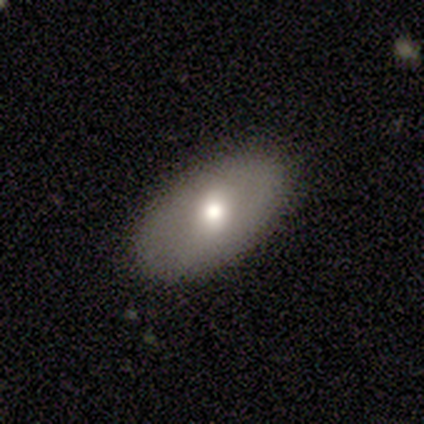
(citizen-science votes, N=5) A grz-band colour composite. It shows a smooth galaxy with no disk features (80%) that is in between round and cigar-shaped (75%). Merging: none (100%).